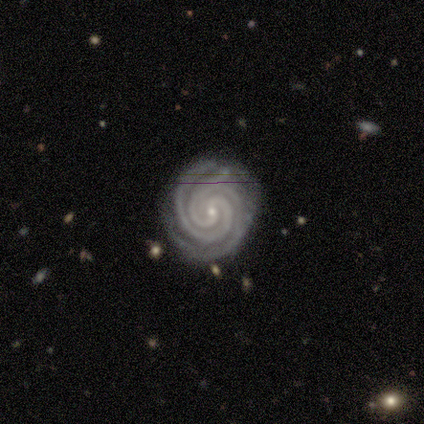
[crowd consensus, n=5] This appears to be a featured or disk galaxy (100%) with no bar (80%), 2 (60%) tight (80%) spiral arms (100%) and a small central bulge (100%). Merging: none (100%).